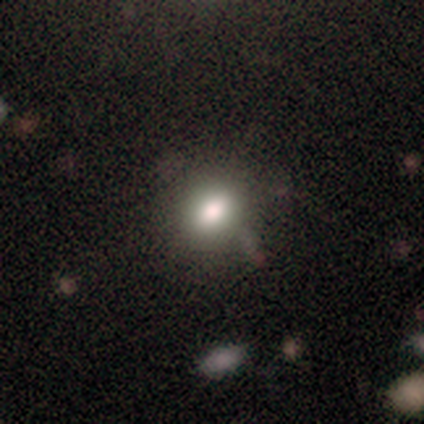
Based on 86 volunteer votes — Q: Smooth or featured?
A: smooth (74%); runner-up: star or artifact (16%)
Q: How rounded?
A: round (52%); runner-up: in between (48%)
Q: Merging?
A: none (76%); runner-up: minor disturbance (15%)